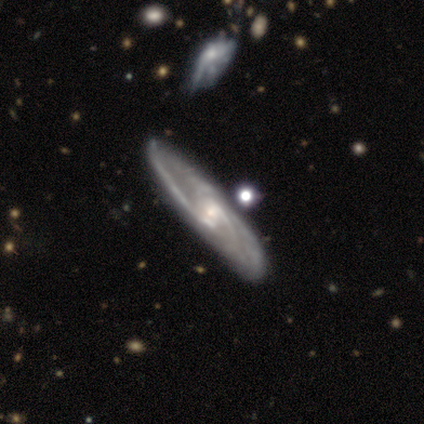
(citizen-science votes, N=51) Volunteers were most divided on "bar": no: 47%, weak: 42%, strong: 11%. More confident: spiral arms — yes (100%); smooth or featured — featured or disk (86%); edge-on disk — no (82%); merging — none (71%); bulge size — small (61%); spiral arm count — 2 (56%); spiral winding — medium (56%).